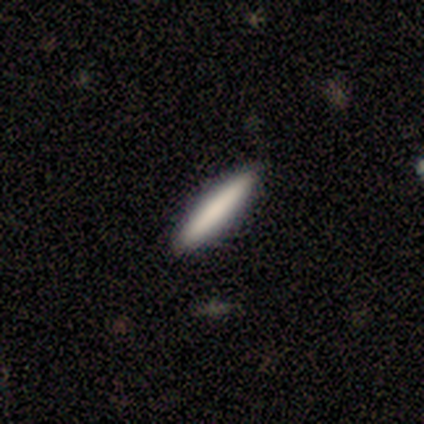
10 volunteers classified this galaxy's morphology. Overall: smooth (90%). How rounded: cigar-shaped (89%). Merging: none (100%).